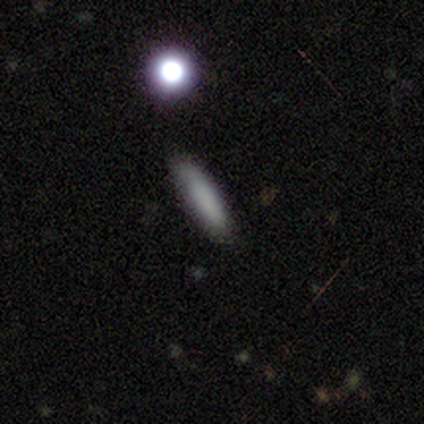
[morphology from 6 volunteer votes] Volunteers were most divided on "how rounded" (2-way tie): in between: 50%, cigar-shaped: 50%, round: 0%. More confident: merging — none (100%); smooth or featured — smooth (67%).